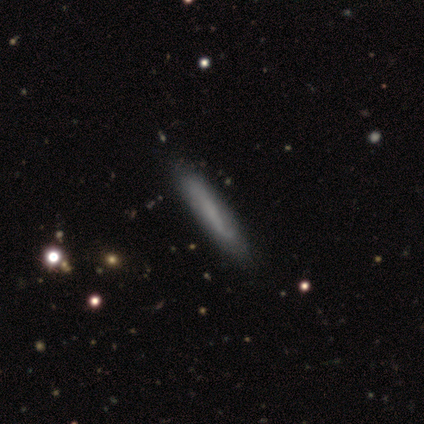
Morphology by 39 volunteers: Smooth or featured? smooth (51%)
How rounded? cigar-shaped (95%)
Merging? none (67%)